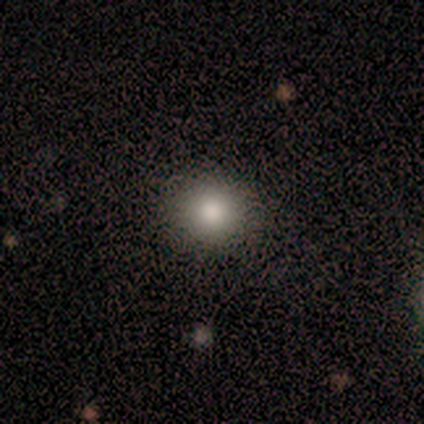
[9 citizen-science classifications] Morphology: type=smooth (56%); roundness=round (80%); merging=none (86%).